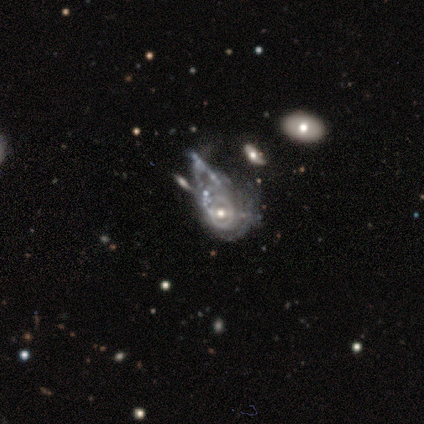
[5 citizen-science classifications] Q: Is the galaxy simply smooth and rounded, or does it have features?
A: featured or disk — 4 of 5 (80%).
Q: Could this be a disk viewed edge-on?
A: no — 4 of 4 (100%).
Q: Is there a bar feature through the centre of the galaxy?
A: weak — 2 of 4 (50%, tied with no).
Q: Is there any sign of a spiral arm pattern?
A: yes — 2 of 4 (50%, tied with no).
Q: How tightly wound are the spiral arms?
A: tight — 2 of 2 (100%).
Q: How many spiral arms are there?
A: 1 — 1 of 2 (50%, tied with can't tell).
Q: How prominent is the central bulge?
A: moderate — 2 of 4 (50%, tied with small).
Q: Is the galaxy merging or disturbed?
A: major disturbance — 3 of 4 (75%).